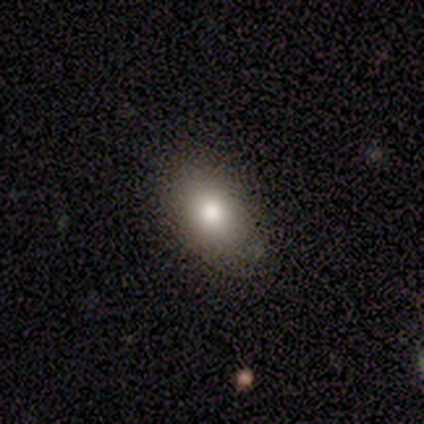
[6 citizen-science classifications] smooth_or_featured: smooth (p=0.83) [alt: featured or disk p=0.17]
how_rounded: in between (p=0.80) [alt: round p=0.20]
merging: none (p=0.67) [alt: minor disturbance p=0.17]